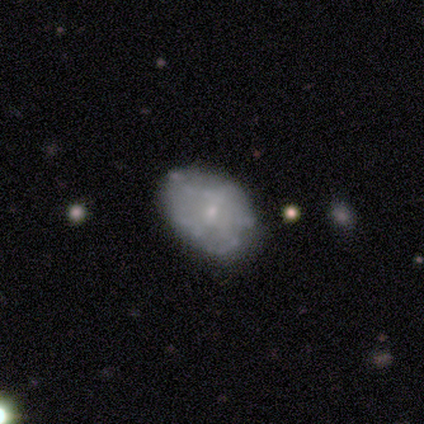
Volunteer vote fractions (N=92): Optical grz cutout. It shows a featured or disk galaxy (61%) with no bar (83%), no spiral arms (72%) and a small central bulge (87%). Merging: none (65%).